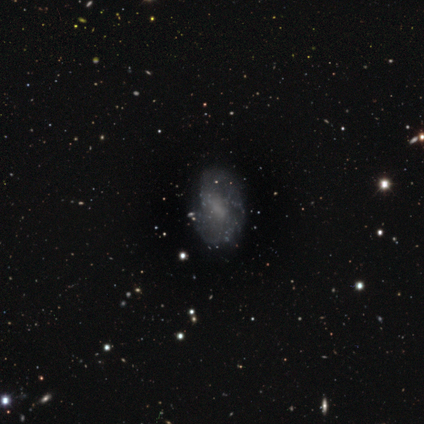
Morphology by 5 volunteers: Smooth or featured? 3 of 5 (60%) said smooth. How rounded? 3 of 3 (100%) said in between. Merging? 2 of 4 (50%) said minor disturbance.